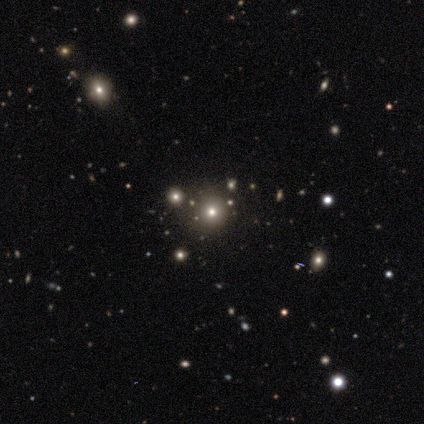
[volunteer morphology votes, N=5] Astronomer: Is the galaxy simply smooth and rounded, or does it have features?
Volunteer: smooth — 40%, tied with star or artifact at 40%.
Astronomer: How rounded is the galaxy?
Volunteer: round — 100%.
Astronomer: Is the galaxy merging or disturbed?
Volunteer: none — 100%.